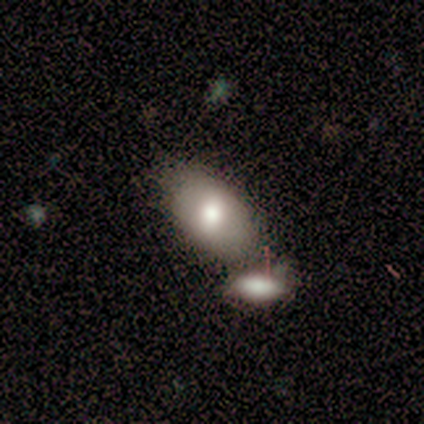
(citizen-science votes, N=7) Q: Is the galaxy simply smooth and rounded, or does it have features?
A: smooth — 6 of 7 (86%).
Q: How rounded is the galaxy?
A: in between — 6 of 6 (100%).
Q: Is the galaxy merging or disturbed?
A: merger — 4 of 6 (67%).